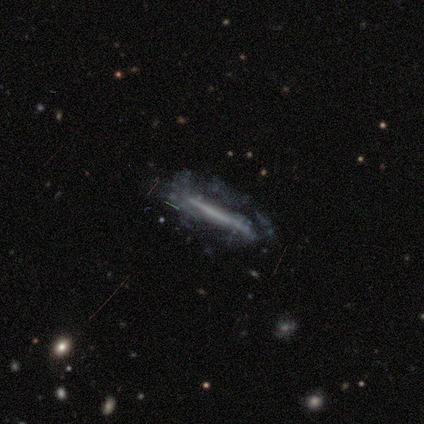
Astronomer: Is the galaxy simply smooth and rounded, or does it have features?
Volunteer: featured or disk — 73%.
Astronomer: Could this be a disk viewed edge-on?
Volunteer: yes — 61% (runner-up: no, 39%).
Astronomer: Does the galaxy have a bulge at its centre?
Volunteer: none — 96%.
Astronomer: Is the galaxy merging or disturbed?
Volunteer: none — 39% (runner-up: major disturbance, 37%).